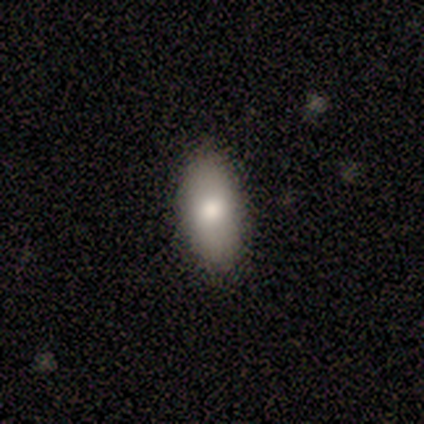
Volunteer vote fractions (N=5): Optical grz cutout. It shows a smooth galaxy with no disk features (100%) that is in between round and cigar-shaped (100%). Merging: none (100%).